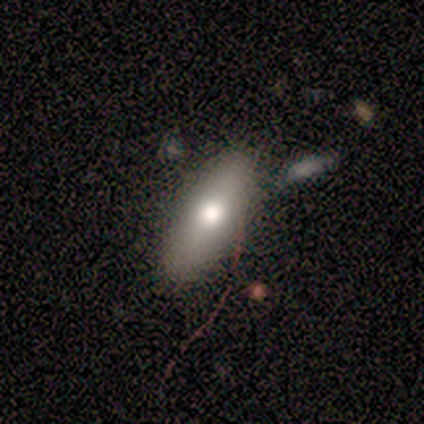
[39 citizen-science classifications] Smooth or featured? 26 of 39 (67%) said smooth. How rounded? 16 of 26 (62%) said in between. Merging? 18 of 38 (47%) said none.